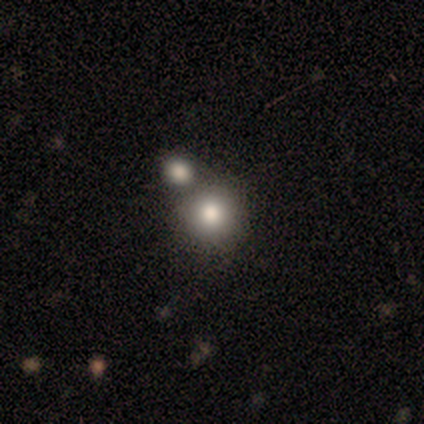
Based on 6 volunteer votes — smooth 100%, featured or disk 0%, star or artifact 0%. Down the decision tree: how rounded — round (100%); merging — none (83%).